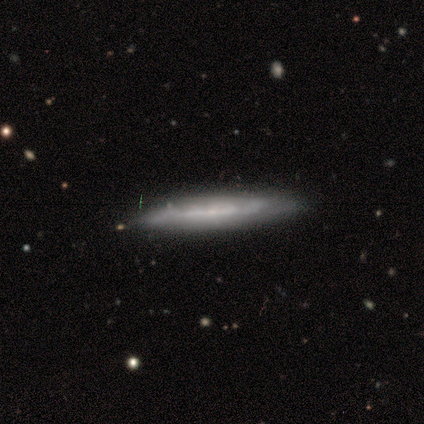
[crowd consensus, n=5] Smooth or featured?
  - featured or disk: 60% *
  - star or artifact: 40%
  - smooth: 0%
Edge-on disk?
  - yes: 67% *
  - no: 33%
Edge-on bulge?
  - none: 100% *
  - boxy: 0%
  - rounded: 0%
Merging?
  - minor disturbance: 67% *
  - none: 33%
  - major disturbance: 0%
  - merger: 0%